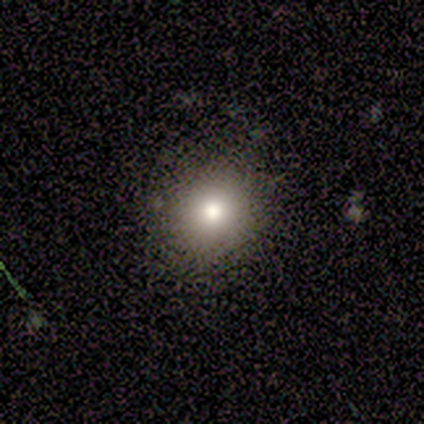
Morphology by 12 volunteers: smooth_or_featured: smooth (p=0.83) [alt: star or artifact p=0.17]
how_rounded: round (p=0.80) [alt: in between p=0.20]
merging: none (p=0.80) [alt: minor disturbance p=0.20]